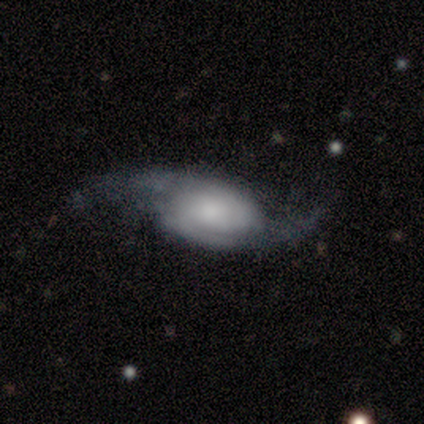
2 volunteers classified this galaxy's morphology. Smooth or featured?
  - featured or disk: 100% *
  - smooth: 0%
  - star or artifact: 0%
Edge-on disk?
  - no: 100% *
  - yes: 0%
Bar?
  - no: 100% *
  - strong: 0%
  - weak: 0%
Spiral arms?
  - yes: 100% *
  - no: 0%
Spiral winding?
  - medium: 50% * (tied)
  - loose: 50% * (tied)
  - tight: 0%
Spiral arm count?
  - 2: 100% *
  - 1: 0%
  - 3: 0%
  - 4: 0%
  - more than 4: 0%
  - can't tell: 0%
Bulge size?
  - dominant: 50% * (tied)
  - small: 50% * (tied)
  - large: 0%
  - moderate: 0%
  - none: 0%
Merging?
  - none: 50% * (tied)
  - major disturbance: 50% * (tied)
  - minor disturbance: 0%
  - merger: 0%